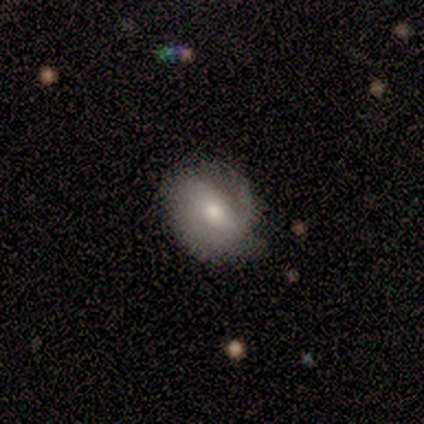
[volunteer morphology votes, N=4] featured or disk 75%, smooth 25%, star or artifact 0%. Down the decision tree: edge-on disk — no (100%); bar — no (100%); spiral arms — no (67%); bulge size — small (67%); merging — none (50%).